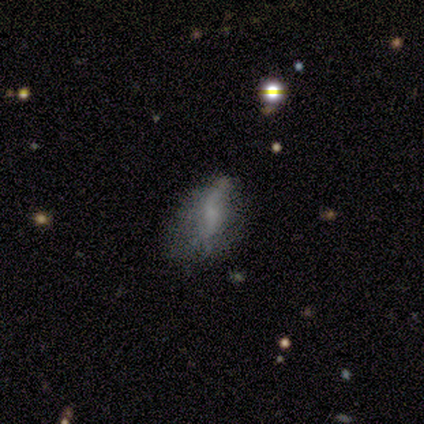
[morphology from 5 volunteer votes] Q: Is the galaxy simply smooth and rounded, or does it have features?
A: featured or disk — 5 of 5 (100%).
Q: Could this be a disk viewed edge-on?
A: no — 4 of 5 (80%).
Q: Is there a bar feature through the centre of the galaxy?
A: weak — 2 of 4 (50%, tied with no).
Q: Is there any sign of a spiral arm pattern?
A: yes — 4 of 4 (100%).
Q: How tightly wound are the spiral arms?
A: loose — 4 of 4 (100%).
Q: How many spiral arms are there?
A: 2 — 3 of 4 (75%).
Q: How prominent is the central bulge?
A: none — 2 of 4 (50%).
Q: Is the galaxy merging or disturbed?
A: minor disturbance — 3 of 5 (60%).